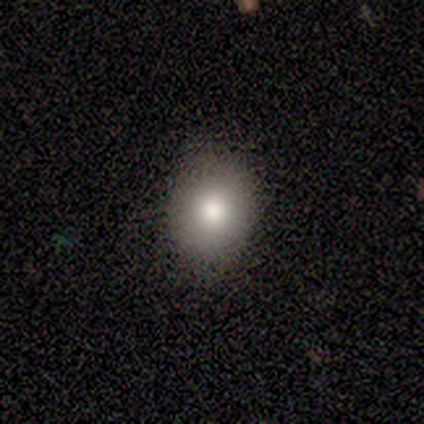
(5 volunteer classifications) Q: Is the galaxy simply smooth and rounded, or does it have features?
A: smooth — 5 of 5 (100%).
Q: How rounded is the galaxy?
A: round — 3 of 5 (60%).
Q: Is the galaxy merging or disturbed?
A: none — 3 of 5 (60%).